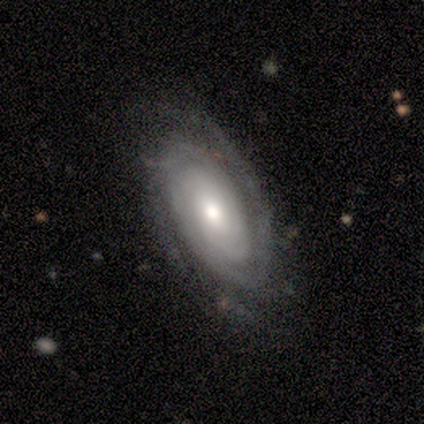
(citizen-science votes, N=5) Q: Smooth or featured?
A: featured or disk (100%)
Q: Edge-on disk?
A: no (80%); runner-up: yes (20%)
Q: Bar?
A: no (100%)
Q: Spiral arms?
A: yes (100%)
Q: Spiral winding?
A: tight (100%)
Q: Spiral arm count?
A: can't tell (50%); runner-up: 2 (25%)
Q: Bulge size?
A: small (50%); runner-up: large (25%)
Q: Merging?
A: none (80%); runner-up: minor disturbance (20%)